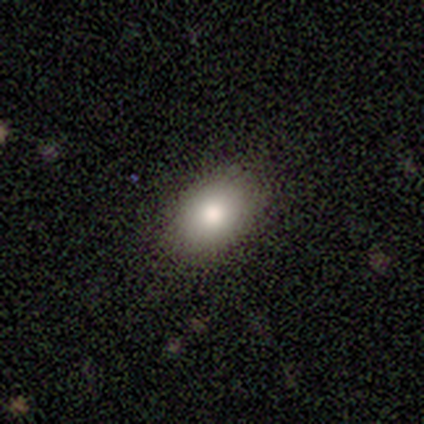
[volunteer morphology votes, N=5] Smooth or featured: smooth — 80% (star or artifact — 20%)
How rounded: in between — 100%
Merging: none — 100%